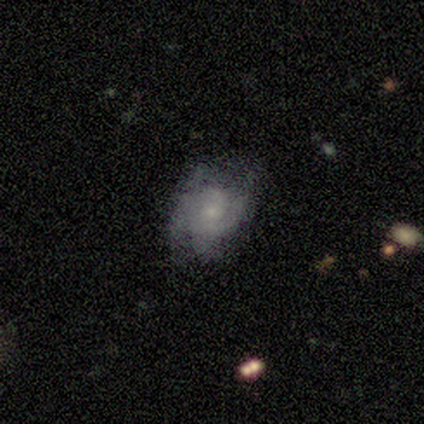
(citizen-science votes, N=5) Smooth or featured: featured or disk — 100%
Edge-on disk: no — 100%
Bar: weak — 60% (no — 40%)
Spiral arms: yes — 100%
Spiral winding: tight — 60% (medium — 20%)
Spiral arm count: can't tell — 40% (1 — 20%)
Bulge size: small — 100%
Merging: none — 60% (minor disturbance — 20%)